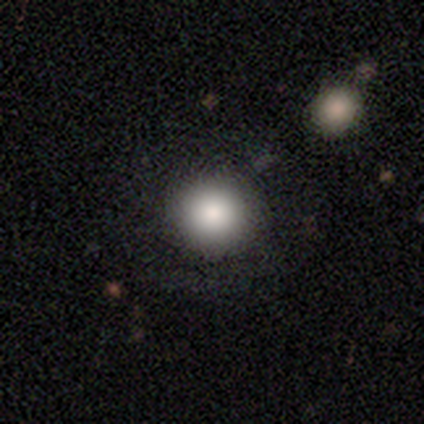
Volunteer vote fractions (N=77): Smooth or featured?
  - smooth: 84% *
  - star or artifact: 9%
  - featured or disk: 6%
How rounded?
  - round: 95% *
  - in between: 5%
  - cigar-shaped: 0%
Merging?
  - none: 56% *
  - merger: 6%
  - minor disturbance: 3%
  - major disturbance: 3%